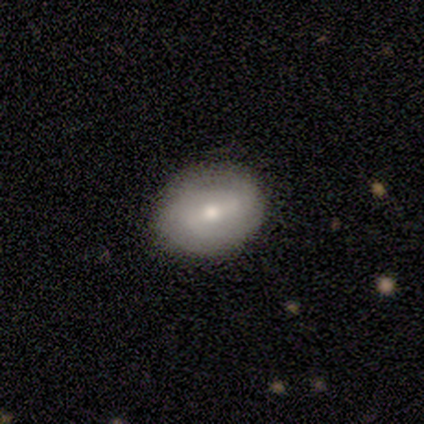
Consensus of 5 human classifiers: Overall: featured or disk (60%; smooth 40%). Edge-on disk: no (100%). Bar: strong (67%; no 33%). Spiral arms: yes (67%; no 33%). Spiral arm count: 2 (50%, tied with can't tell). Spiral winding: medium (50%, tied with loose). Bulge size: small (67%; moderate 33%). Merging: none (100%).